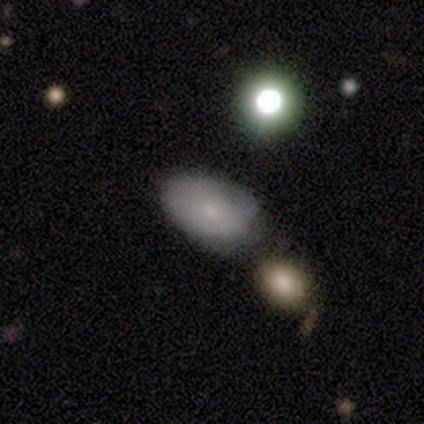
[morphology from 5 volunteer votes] smooth_or_featured: smooth (p=0.60) [alt: featured or disk p=0.40]
how_rounded: in between (p=1.00)
merging: none (p=0.80) [alt: minor disturbance p=0.20]